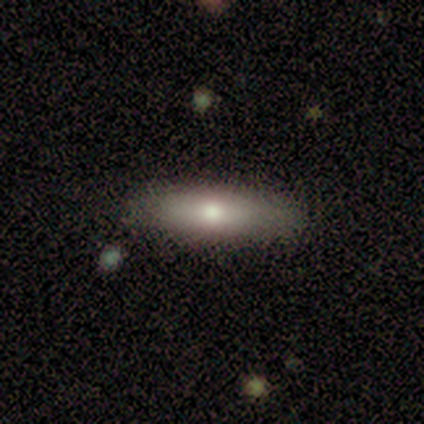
Smooth or featured? smooth (80%)
How rounded? in between (50%, tied with cigar-shaped)
Merging? none (40%, tied with minor disturbance)